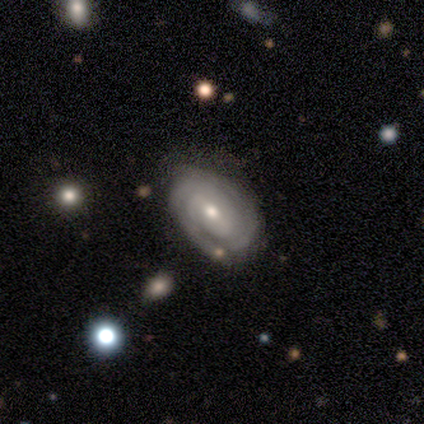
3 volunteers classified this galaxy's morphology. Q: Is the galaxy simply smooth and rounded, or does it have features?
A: featured or disk — 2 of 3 (67%).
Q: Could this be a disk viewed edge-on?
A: no — 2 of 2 (100%).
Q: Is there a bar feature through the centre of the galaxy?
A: weak — 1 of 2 (50%, tied with no).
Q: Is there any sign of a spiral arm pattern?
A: yes — 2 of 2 (100%).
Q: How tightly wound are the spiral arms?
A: tight — 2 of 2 (100%).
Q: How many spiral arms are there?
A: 3 — 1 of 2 (50%, tied with can't tell).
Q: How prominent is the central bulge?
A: moderate — 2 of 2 (100%).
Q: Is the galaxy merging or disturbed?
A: none — 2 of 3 (67%).